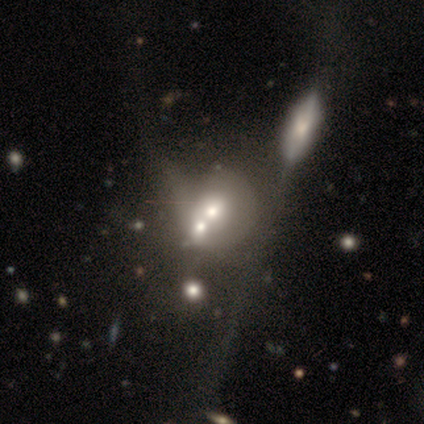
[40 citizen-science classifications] Smooth or featured? 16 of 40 (40%, tied with featured or disk) said smooth. How rounded? 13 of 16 (81%) said round. Merging? 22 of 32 (69%) said merger.